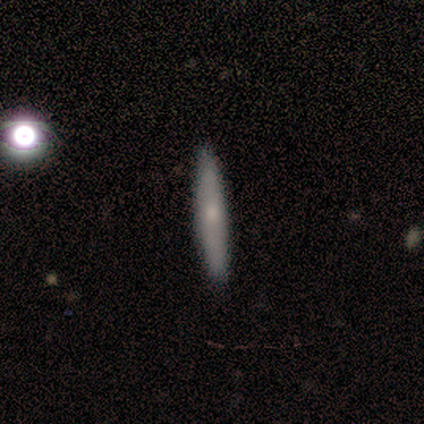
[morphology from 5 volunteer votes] This is clearly a smooth galaxy (80%). How rounded: clearly cigar-shaped (100%). Merging: clearly none (100%).